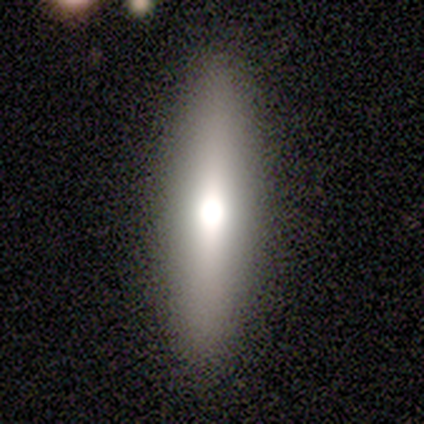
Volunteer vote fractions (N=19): Smooth or featured?
  - smooth: 53% *
  - featured or disk: 42%
  - star or artifact: 5%
How rounded?
  - cigar-shaped: 90% *
  - in between: 10%
  - round: 0%
Merging?
  - none: 89% *
  - minor disturbance: 11%
  - major disturbance: 0%
  - merger: 0%